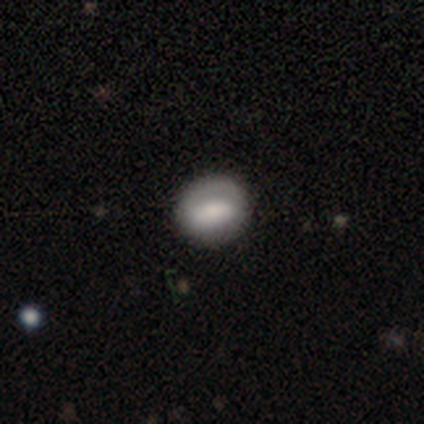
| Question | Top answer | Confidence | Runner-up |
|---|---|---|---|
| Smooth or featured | smooth | 100% | — |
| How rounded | round | 80% | in between (20%) |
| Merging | none | 100% | — |